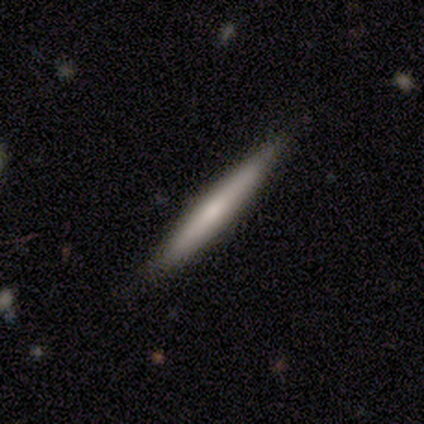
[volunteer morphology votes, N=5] A featured or disk galaxy (60%) viewed edge-on (100%) with no central bulge (100%). Merging: none (100%).